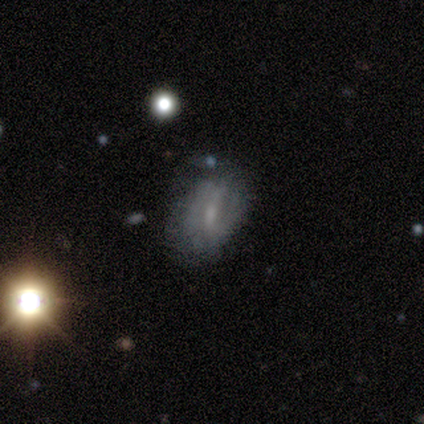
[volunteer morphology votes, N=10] smooth-or-featured: smooth: 40% (tied) | featured or disk: 40% (tied) | star or artifact: 20%
  how-rounded: in between: 100% | round: 0% | cigar-shaped: 0%
  merging: minor disturbance: 62% | none: 38% | major disturbance: 0% | merger: 0%